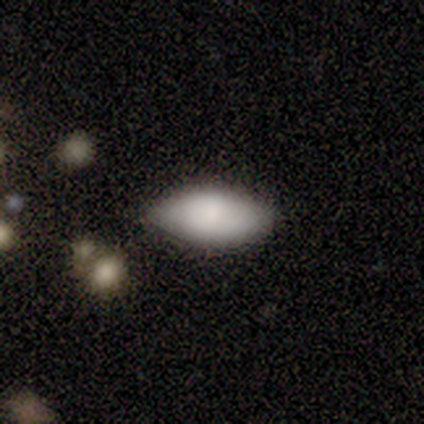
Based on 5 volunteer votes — Smooth or featured? smooth (100%)
How rounded? in between (100%)
Merging? none (60%)